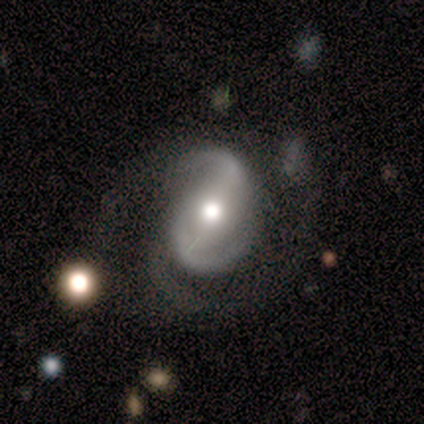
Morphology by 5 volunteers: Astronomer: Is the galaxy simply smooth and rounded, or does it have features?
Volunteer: featured or disk — 100%.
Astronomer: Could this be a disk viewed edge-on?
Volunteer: no — 100%.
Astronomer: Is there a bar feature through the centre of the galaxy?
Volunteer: strong — 60%.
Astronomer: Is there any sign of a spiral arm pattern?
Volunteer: yes — 100%.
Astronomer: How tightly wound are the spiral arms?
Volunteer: tight — 40%, tied with loose at 40%.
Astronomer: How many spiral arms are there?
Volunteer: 2 — 100%.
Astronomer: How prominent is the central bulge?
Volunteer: moderate — 80%.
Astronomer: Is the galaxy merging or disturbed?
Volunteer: none — 60%.